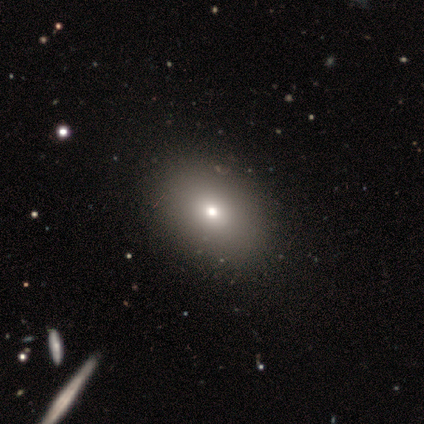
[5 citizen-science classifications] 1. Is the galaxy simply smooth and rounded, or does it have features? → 60% smooth, 40% featured or disk, 0% star or artifact.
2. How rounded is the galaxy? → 67% round, 33% in between, 0% cigar-shaped.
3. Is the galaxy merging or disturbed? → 80% none, 20% minor disturbance, 0% major disturbance, 0% merger.